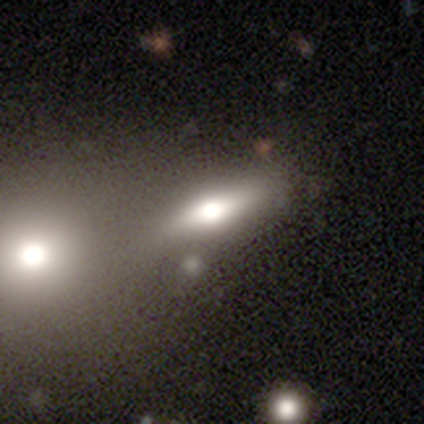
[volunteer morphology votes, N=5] Smooth or featured? featured or disk (80%)
Edge-on disk? yes (100%)
Edge-on bulge? rounded (100%)
Merging? none (80%)